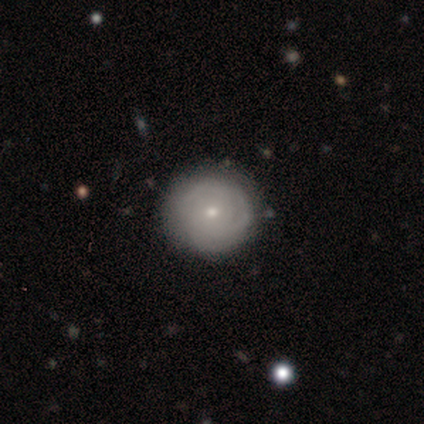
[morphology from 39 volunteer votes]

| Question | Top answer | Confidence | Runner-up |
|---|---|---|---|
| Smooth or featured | smooth | 51% | featured or disk (41%) |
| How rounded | round | 100% | — |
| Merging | none | 78% | minor disturbance (19%) |